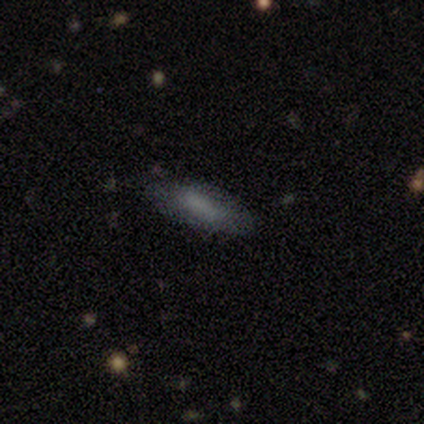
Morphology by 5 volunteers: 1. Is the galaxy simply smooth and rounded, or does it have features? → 100% smooth, 0% featured or disk, 0% star or artifact.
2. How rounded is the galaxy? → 60% in between, 40% cigar-shaped, 0% round.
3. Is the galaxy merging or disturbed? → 100% none, 0% minor disturbance, 0% major disturbance, 0% merger.